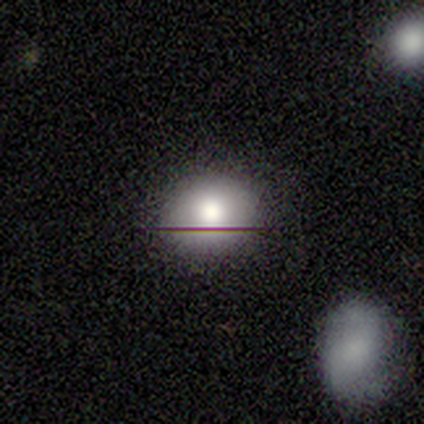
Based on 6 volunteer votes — smooth_or_featured: smooth (p=0.50) [tied with: featured or disk p=0.50]
how_rounded: round (p=0.67) [alt: in between p=0.33]
merging: none (p=0.67) [alt: minor disturbance p=0.33]